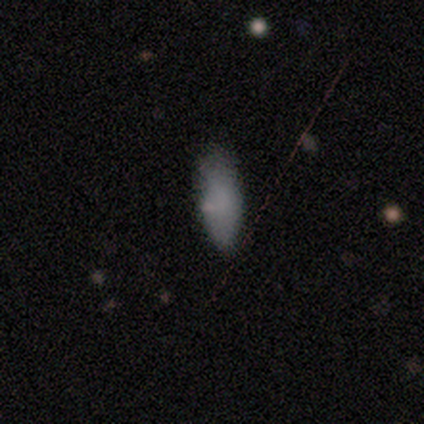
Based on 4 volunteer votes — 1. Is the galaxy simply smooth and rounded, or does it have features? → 100% smooth, 0% featured or disk, 0% star or artifact.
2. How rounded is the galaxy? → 100% in between, 0% round, 0% cigar-shaped.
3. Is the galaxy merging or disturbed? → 75% none, 25% minor disturbance, 0% major disturbance, 0% merger.